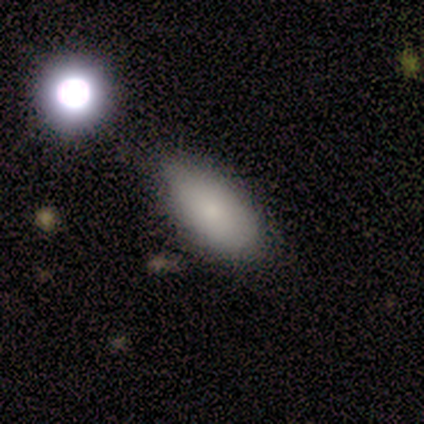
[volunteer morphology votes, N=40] Smooth or featured: smooth — 92% (featured or disk — 5%)
How rounded: in between — 95% (cigar-shaped — 5%)
Merging: none — 51% (minor disturbance — 23%)